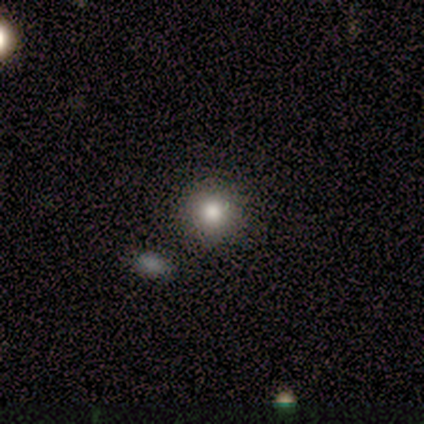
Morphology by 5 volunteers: A star or artifact, not a galaxy (60%).